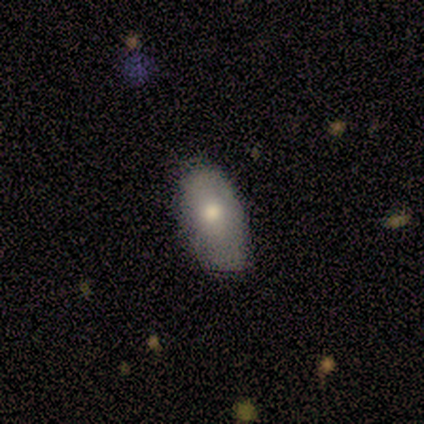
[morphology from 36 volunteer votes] Overall: smooth (75%). How rounded: in between (96%). Merging: none (85%).